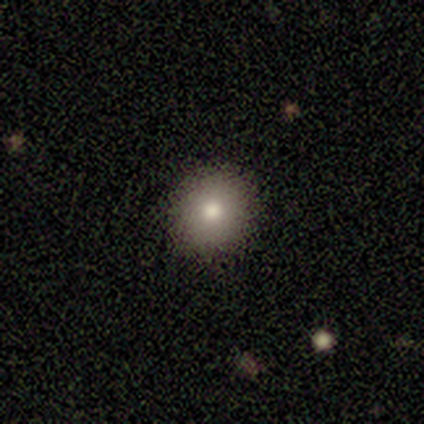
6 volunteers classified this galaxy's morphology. Smooth or featured? smooth (100%)
How rounded? round (100%)
Merging? none (100%)